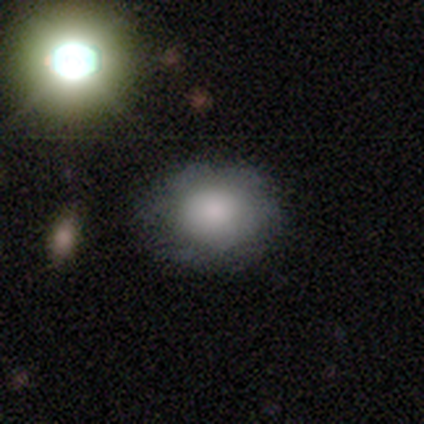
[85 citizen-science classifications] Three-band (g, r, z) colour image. It shows a smooth galaxy with no disk features (74%) that is round (67%). Merging: none (79%).